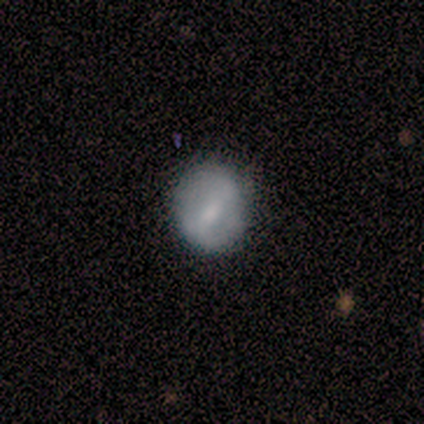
Smooth or featured? 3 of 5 (60%) said smooth. How rounded? 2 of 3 (67%) said round. Merging? 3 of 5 (60%) said minor disturbance.